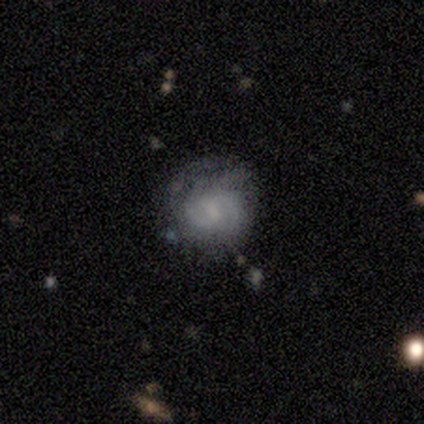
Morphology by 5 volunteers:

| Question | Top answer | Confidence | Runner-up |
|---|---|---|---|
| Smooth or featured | featured or disk | 60% | smooth (20%) |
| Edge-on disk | no | 100% | — |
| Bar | weak | 100% | — |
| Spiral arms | yes | 100% | — |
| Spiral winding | tight | 33% | tied: medium (33%), loose (33%) |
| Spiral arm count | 2 | 100% | — |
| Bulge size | small | 67% | none (33%) |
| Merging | minor disturbance | 50% | none (25%) |